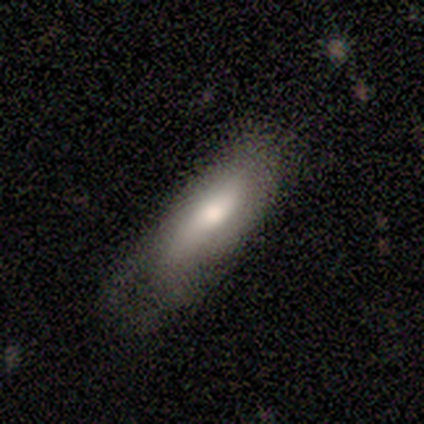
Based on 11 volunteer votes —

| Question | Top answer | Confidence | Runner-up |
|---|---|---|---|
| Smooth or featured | smooth | 64% | featured or disk (36%) |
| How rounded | in between | 100% | — |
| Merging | none | 36% | tied: minor disturbance (36%) |